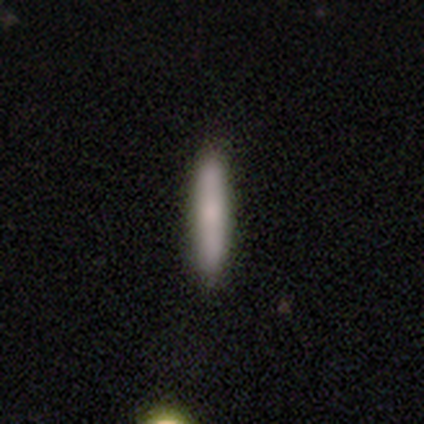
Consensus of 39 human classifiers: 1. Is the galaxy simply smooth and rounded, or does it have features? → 79% smooth, 18% featured or disk, 3% star or artifact.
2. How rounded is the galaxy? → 97% cigar-shaped, 3% in between, 0% round.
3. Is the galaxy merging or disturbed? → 89% none, 5% major disturbance, 3% minor disturbance, 3% merger.